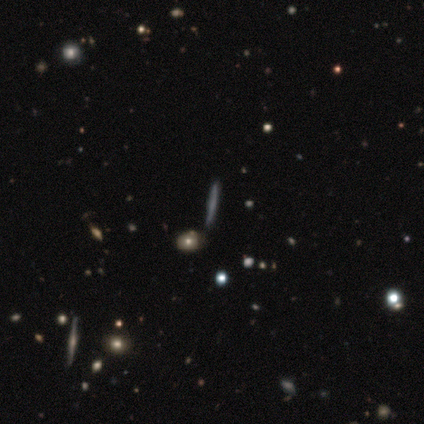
A smooth galaxy with no disk features (60%) that is cigar-shaped (100%).

Vote fractions:
- Smooth or featured? smooth: 60% / featured or disk: 20% / star or artifact: 20%
- How rounded? cigar-shaped: 100% / round: 0% / in between: 0%
- Merging? none: 75% / merger: 25% / minor disturbance: 0% / major disturbance: 0%